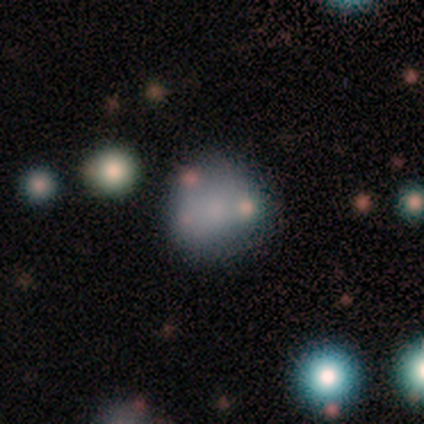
smooth-or-featured: featured or disk: 57% | smooth: 36% | star or artifact: 7%
  disk-edge-on: no: 88% | yes: 12%
    bar: no: 71% | weak: 29% | strong: 0%
    has-spiral-arms: no: 100% | yes: 0%
    bulge-size: none: 71% | moderate: 14% | small: 14% | dominant: 0% | large: 0%
  merging: none: 54% | merger: 23% | minor disturbance: 15% | major disturbance: 8%